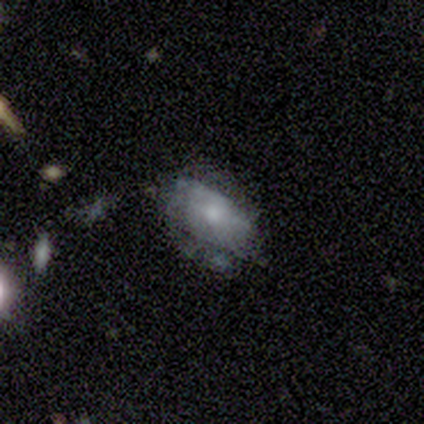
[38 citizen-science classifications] Volunteers were most divided on "smooth or featured": featured or disk: 50%, smooth: 47%, star or artifact: 3%. Remaining: edge-on disk — no (100%); bar — no (89%); spiral arms — no (89%); bulge size — small (68%); merging — none (41%).